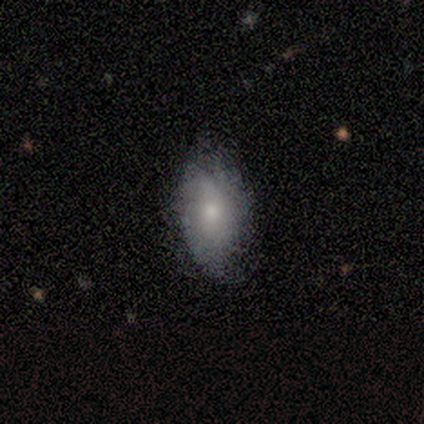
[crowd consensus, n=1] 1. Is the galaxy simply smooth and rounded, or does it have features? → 100% smooth, 0% featured or disk, 0% star or artifact.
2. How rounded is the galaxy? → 100% in between, 0% round, 0% cigar-shaped.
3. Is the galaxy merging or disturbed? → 100% none, 0% minor disturbance, 0% major disturbance, 0% merger.